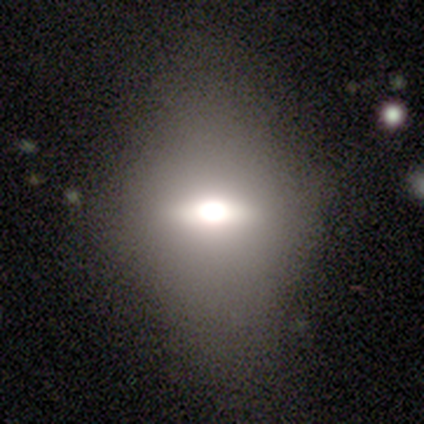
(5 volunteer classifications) A smooth galaxy with no disk features (60%) that is in between round and cigar-shaped (67%). Merging: none (60%).